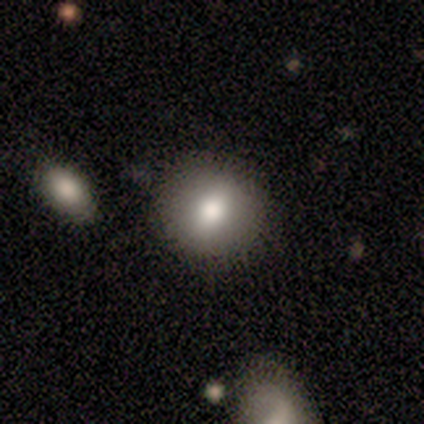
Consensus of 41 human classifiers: A smooth galaxy with no disk features (73%) that is round (93%).

Vote fractions:
- Smooth or featured? smooth: 73% / featured or disk: 22% / star or artifact: 5%
- How rounded? round: 93% / in between: 7% / cigar-shaped: 0%
- Merging? none: 87% / minor disturbance: 10% / major disturbance: 3% / merger: 0%